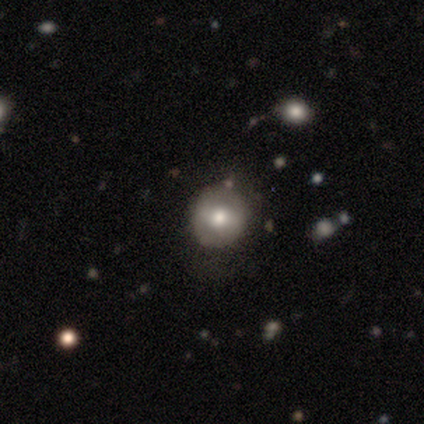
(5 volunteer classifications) Smooth or featured? 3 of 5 (60%) said smooth. How rounded? 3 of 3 (100%) said round. Merging? 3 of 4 (75%) said none.